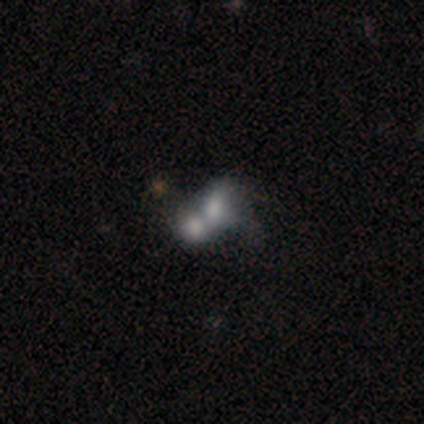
This is marginally a smooth galaxy (40%, tied with featured or disk). How rounded: clearly in between (100%). Merging: clearly merger (100%).